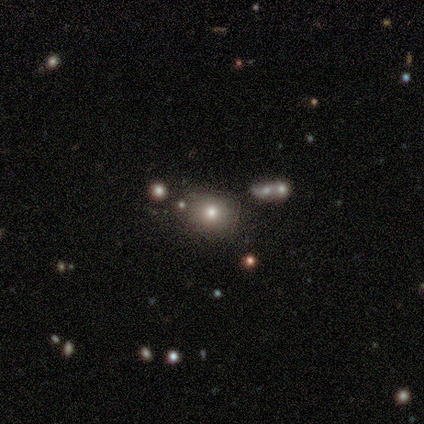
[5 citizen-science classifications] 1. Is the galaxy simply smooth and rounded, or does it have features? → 40% smooth (tied), 40% star or artifact (tied), 20% featured or disk.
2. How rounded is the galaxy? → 50% round (tied), 50% in between (tied), 0% cigar-shaped.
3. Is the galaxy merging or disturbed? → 67% none, 33% merger, 0% minor disturbance, 0% major disturbance.